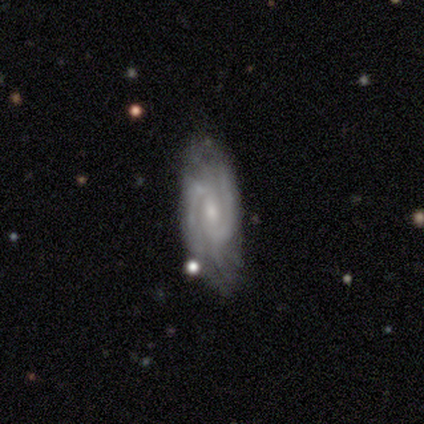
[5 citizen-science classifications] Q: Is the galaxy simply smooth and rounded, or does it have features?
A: featured or disk — 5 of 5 (100%).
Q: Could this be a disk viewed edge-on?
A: no — 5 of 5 (100%).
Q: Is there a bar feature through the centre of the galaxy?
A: weak — 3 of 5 (60%).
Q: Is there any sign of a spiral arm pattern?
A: yes — 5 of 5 (100%).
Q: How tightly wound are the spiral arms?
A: medium — 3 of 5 (60%).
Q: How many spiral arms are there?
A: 2 — 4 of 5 (80%).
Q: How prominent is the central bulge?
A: small — 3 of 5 (60%).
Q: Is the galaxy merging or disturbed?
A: none — 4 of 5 (80%).